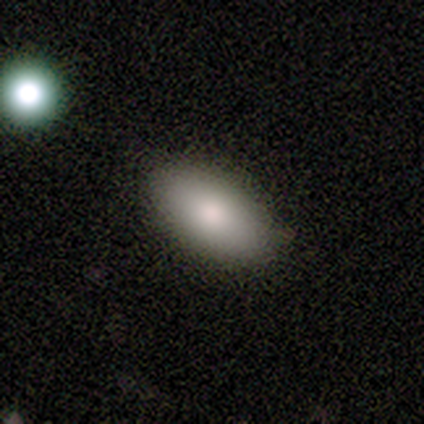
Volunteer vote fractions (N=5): This appears to be a smooth galaxy with no disk features (100%) that is in between round and cigar-shaped (80%). Merging: none (80%).